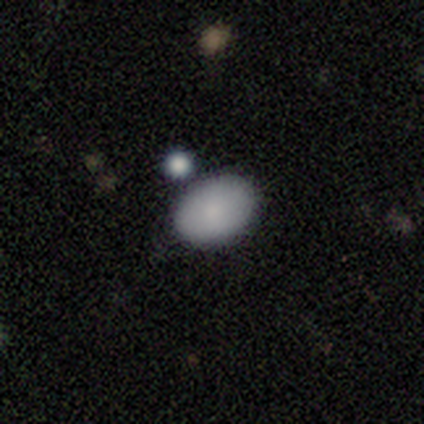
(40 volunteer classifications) Smooth or featured?
  - smooth: 85% *
  - featured or disk: 8%
  - star or artifact: 8%
How rounded?
  - in between: 79% *
  - round: 21%
  - cigar-shaped: 0%
Merging?
  - merger: 51% *
  - none: 0%
  - minor disturbance: 0%
  - major disturbance: 0%